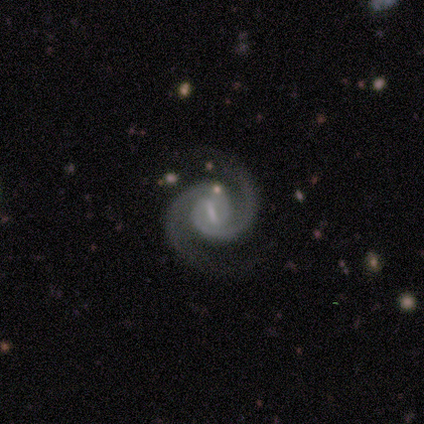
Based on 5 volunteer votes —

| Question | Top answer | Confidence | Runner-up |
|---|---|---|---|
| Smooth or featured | featured or disk | 100% | — |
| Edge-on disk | no | 80% | yes (20%) |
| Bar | weak | 50% | strong (25%) |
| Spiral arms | yes | 100% | — |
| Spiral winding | medium | 100% | — |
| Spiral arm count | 2 | 100% | — |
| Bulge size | small | 50% | moderate (25%) |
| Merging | none | 100% | — |